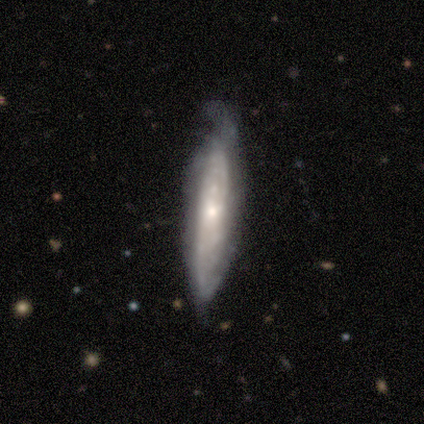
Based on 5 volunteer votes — Smooth or featured?
  - featured or disk: 80% *
  - smooth: 20%
  - star or artifact: 0%
Edge-on disk?
  - yes: 50% * (tied)
  - no: 50% * (tied)
Edge-on bulge?
  - none: 50% * (tied)
  - rounded: 50% * (tied)
  - boxy: 0%
Merging?
  - minor disturbance: 60% *
  - none: 40%
  - major disturbance: 0%
  - merger: 0%